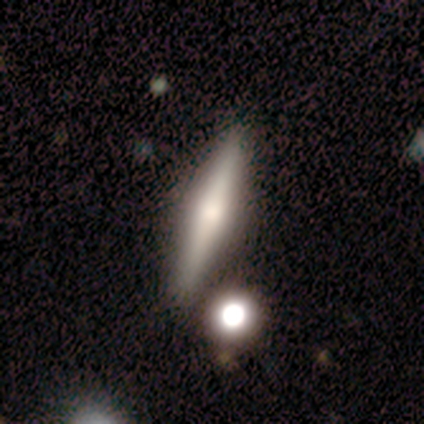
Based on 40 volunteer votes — Smooth or featured?
  - featured or disk: 62% *
  - smooth: 38%
  - star or artifact: 0%
Edge-on disk?
  - yes: 92% *
  - no: 8%
Edge-on bulge?
  - rounded: 91% *
  - boxy: 4%
  - none: 4%
Merging?
  - none: 72% *
  - minor disturbance: 18%
  - merger: 8%
  - major disturbance: 2%